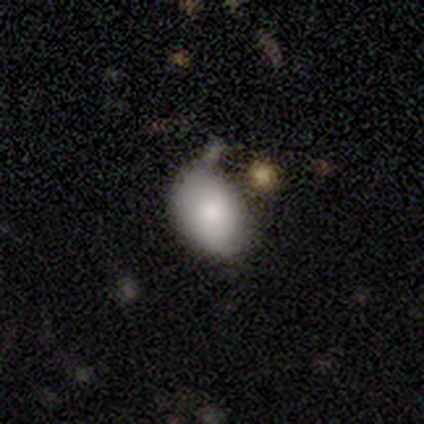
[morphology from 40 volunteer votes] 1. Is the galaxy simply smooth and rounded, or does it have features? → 90% smooth, 5% featured or disk, 5% star or artifact.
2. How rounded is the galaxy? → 86% in between, 14% round, 0% cigar-shaped.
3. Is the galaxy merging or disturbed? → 47% none, 42% minor disturbance, 8% major disturbance, 3% merger.